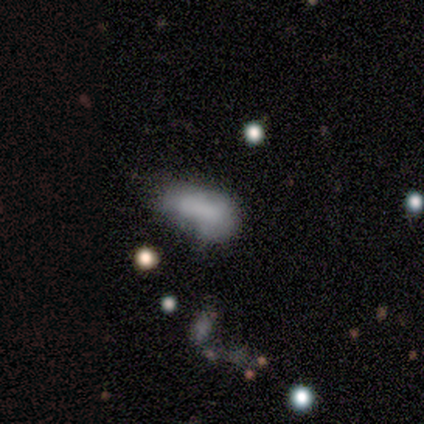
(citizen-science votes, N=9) Smooth or featured? smooth (89%)
How rounded? in between (100%)
Merging? none (33%, tied with minor disturbance and major disturbance)